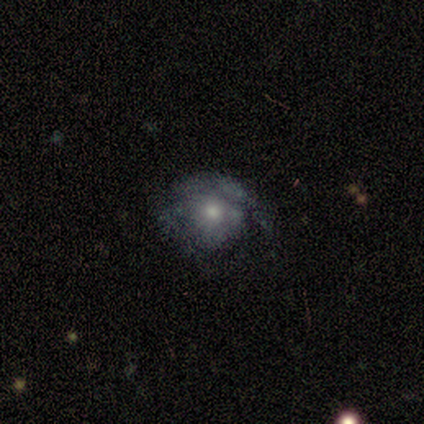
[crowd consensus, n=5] A featured or disk galaxy (60%) with a weak bar (67%), 1 (50%, tied with 2) tight (50%, tied with loose) spiral arms (67%) and a moderate central bulge (100%). Merging: none (75%).